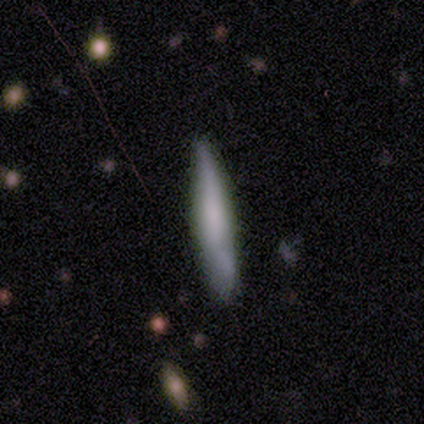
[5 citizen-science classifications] smooth-or-featured: smooth: 100% | featured or disk: 0% | star or artifact: 0%
  how-rounded: cigar-shaped: 100% | round: 0% | in between: 0%
  merging: none: 60% | minor disturbance: 40% | major disturbance: 0% | merger: 0%